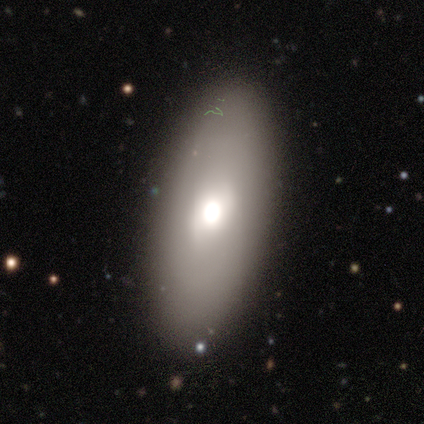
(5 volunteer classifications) Overall: featured or disk (100%). Edge-on disk: no (60%; yes 40%). Bar: no (67%; weak 33%). Spiral arms: no (67%; yes 33%). Bulge size: large (33%, tied with moderate and small). Merging: none (80%).